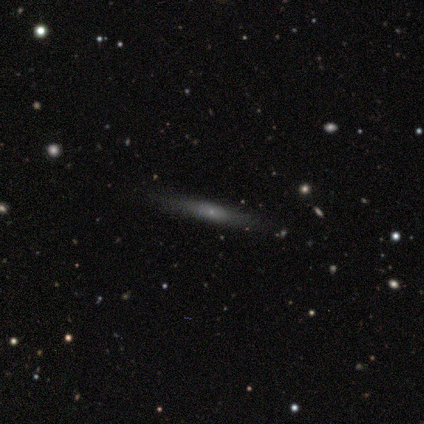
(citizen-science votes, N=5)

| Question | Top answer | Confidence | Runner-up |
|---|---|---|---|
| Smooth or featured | smooth | 60% | featured or disk (40%) |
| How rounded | cigar-shaped | 67% | in between (33%) |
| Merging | none | 100% | — |